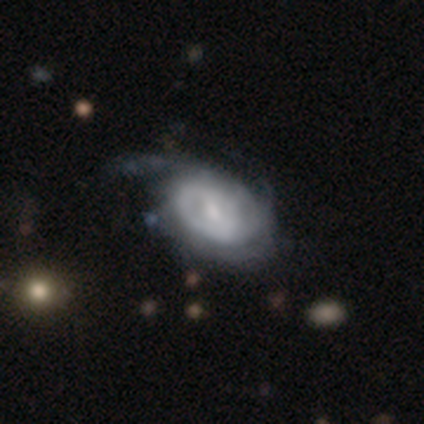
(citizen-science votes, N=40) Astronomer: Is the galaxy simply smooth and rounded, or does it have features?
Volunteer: featured or disk — 90%.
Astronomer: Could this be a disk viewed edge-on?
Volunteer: no — 100%.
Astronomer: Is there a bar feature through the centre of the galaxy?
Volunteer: weak — 61%.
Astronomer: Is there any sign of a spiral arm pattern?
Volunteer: yes — 83%.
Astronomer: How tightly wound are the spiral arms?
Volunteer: tight — 53% (runner-up: medium, 30%).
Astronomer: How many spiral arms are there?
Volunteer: can't tell — 60%.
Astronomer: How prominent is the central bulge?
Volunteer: small — 44% (runner-up: moderate, 36%).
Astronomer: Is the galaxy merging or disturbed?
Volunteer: major disturbance — 28% (runner-up: none, 23%).